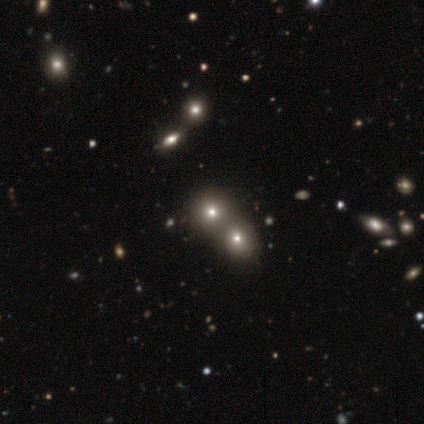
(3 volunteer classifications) Volunteers were most divided on "smooth or featured": star or artifact: 67%, featured or disk: 33%, smooth: 0%.